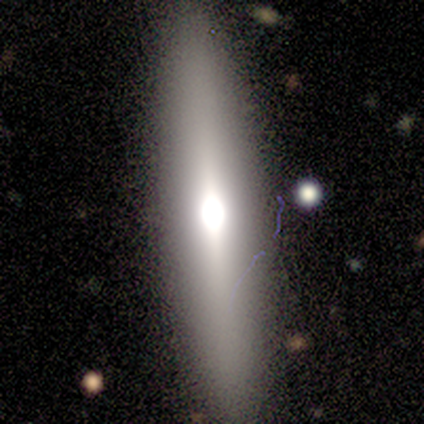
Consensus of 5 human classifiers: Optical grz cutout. It shows a featured or disk galaxy (80%) viewed edge-on (100%) with a rounded central bulge (75%). Merging: none (100%).